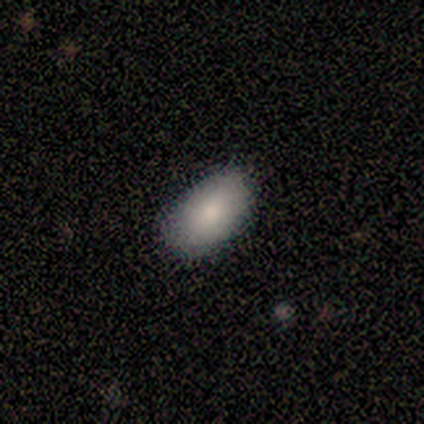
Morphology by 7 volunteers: Smooth or featured?
  - smooth: 86% *
  - featured or disk: 14%
  - star or artifact: 0%
How rounded?
  - in between: 83% *
  - round: 17%
  - cigar-shaped: 0%
Merging?
  - none: 71% *
  - minor disturbance: 29%
  - major disturbance: 0%
  - merger: 0%